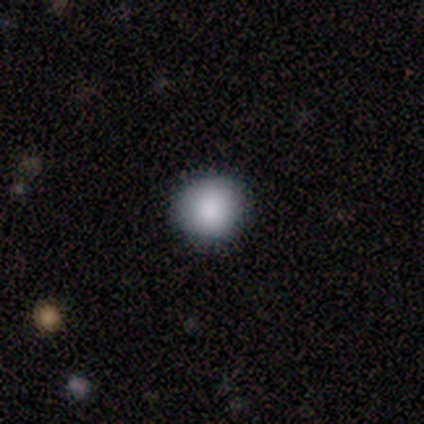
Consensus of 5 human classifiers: A smooth galaxy with no disk features (100%) that is round (100%).

Vote fractions:
- Smooth or featured? smooth: 100% / featured or disk: 0% / star or artifact: 0%
- How rounded? round: 100% / in between: 0% / cigar-shaped: 0%
- Merging? none: 100% / minor disturbance: 0% / major disturbance: 0% / merger: 0%